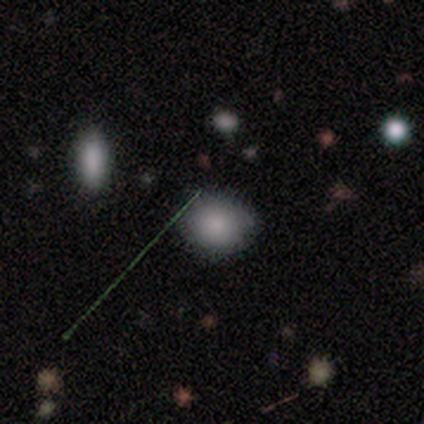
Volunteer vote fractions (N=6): smooth_or_featured: smooth (p=0.83) [alt: star or artifact p=0.17]
how_rounded: round (p=0.80) [alt: in between p=0.20]
merging: none (p=0.80) [alt: minor disturbance p=0.20]